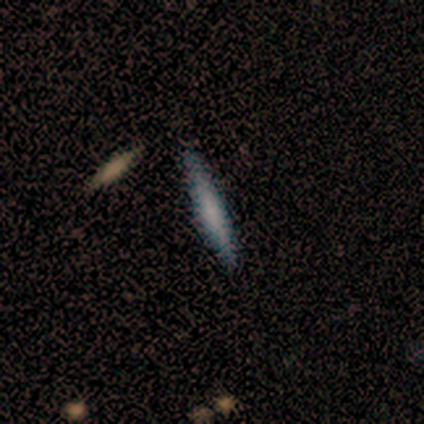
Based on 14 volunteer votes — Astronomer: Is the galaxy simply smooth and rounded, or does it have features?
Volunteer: smooth — 71%.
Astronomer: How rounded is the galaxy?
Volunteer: cigar-shaped — 90%.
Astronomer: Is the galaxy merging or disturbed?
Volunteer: none — 93%.